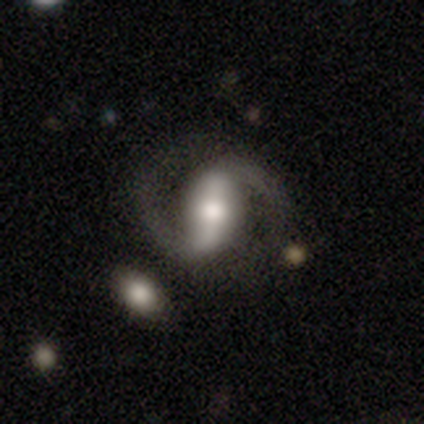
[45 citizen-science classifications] Smooth or featured? featured or disk (87%)
Edge-on disk? no (95%)
Bar? strong (57%)
Spiral arms? yes (97%)
Spiral winding? medium (53%)
Spiral arm count? 2 (97%)
Bulge size? moderate (59%)
Merging? none (74%)